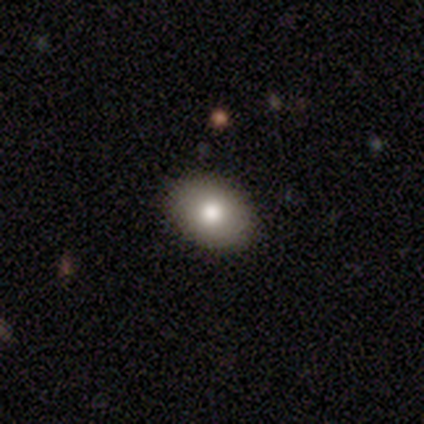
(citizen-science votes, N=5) Q: Smooth or featured?
A: smooth (80%); runner-up: featured or disk (20%)
Q: How rounded?
A: in between (100%)
Q: Merging?
A: none (100%)